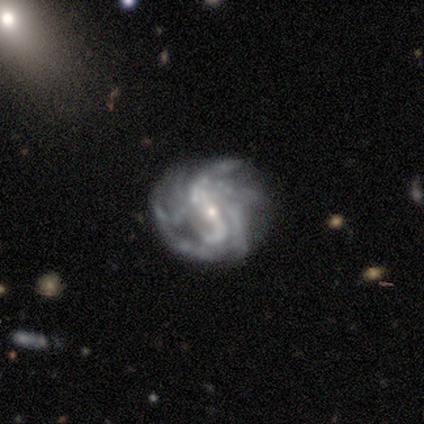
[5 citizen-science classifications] Smooth or featured? 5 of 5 (100%) said featured or disk. Edge-on disk? 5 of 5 (100%) said no. Bar? 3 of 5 (60%) said strong. Spiral arms? 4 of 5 (80%) said yes. Spiral winding? 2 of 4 (50%) said loose. Spiral arm count? 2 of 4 (50%) said can't tell. Bulge size? 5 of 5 (100%) said small. Merging? 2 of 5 (40%, tied with major disturbance) said minor disturbance.